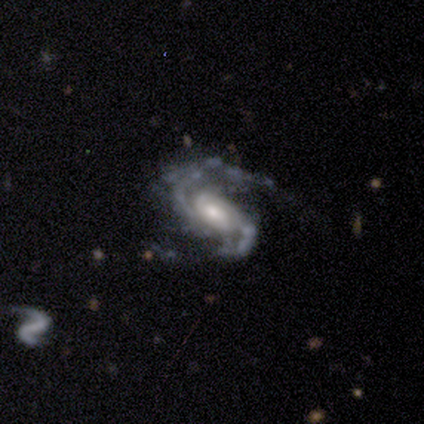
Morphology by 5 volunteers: A featured or disk galaxy (80%) with a weak bar (50%, tied with no), 2 (100%) medium (75%) spiral arms (100%) and a moderate central bulge (50%, tied with small). Merging: none (40%, tied with minor disturbance).